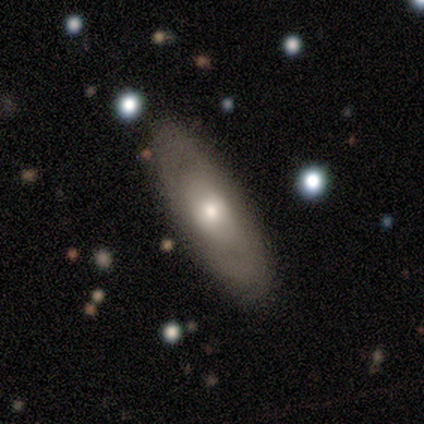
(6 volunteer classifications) This is possibly a smooth galaxy (50%, tied with featured or disk). How rounded: likely in between (67%). Merging: possibly none (50%).